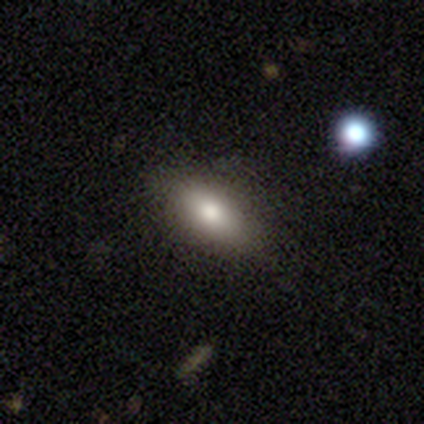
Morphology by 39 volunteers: A smooth galaxy with no disk features (77%) that is in between round and cigar-shaped (77%).

Vote fractions:
- Smooth or featured? smooth: 77% / featured or disk: 13% / star or artifact: 10%
- How rounded? in between: 77% / cigar-shaped: 20% / round: 3%
- Merging? none: 89% / minor disturbance: 6% / major disturbance: 6% / merger: 0%